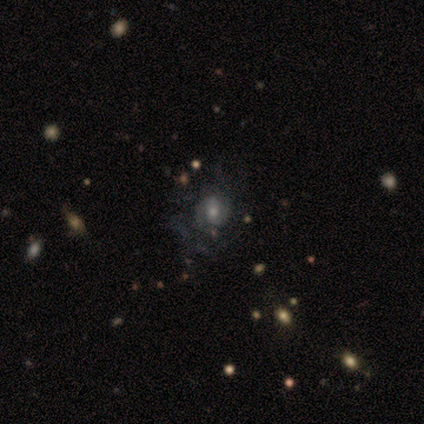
A featured or disk galaxy (45%) with no bar (50%), tight (69%) spiral arms (81%) and a small central bulge (44%).

Vote fractions:
- Smooth or featured? featured or disk: 45% / smooth: 39% / star or artifact: 16%
- Edge-on disk? no: 94% / yes: 6%
- Bar? no: 50% / weak: 38% / strong: 12%
- Spiral arms? yes: 81% / no: 19%
- Spiral winding? tight: 69% / medium: 23% / loose: 8%
- Spiral arm count? can't tell: 69% / 2: 31% / 1: 0% / 3: 0% / 4: 0% / more than 4: 0%
- Bulge size? small: 44% / moderate: 31% / large: 19% / dominant: 6% / none: 0%
- Merging? none: 62% / major disturbance: 22% / minor disturbance: 16% / merger: 0%